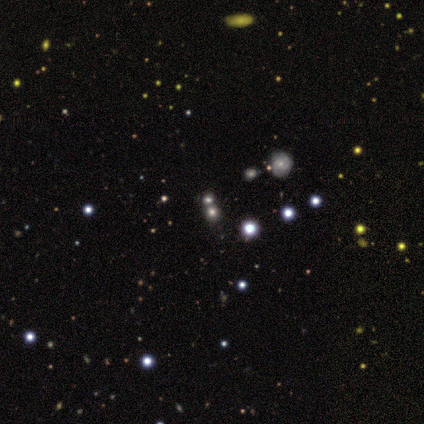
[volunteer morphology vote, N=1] Q: Smooth or featured?
A: star or artifact (100%)